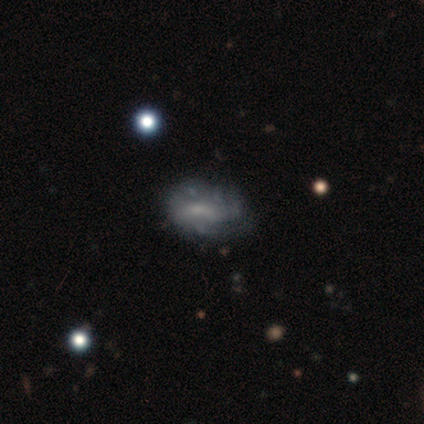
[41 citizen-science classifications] This is likely a featured or disk galaxy (66%). It is clearly not viewed edge-on (100%). Bar: possibly no (59%). Spiral arm pattern: possibly yes (59%). Spiral arm count: likely can't tell (69%). Spiral winding: possibly tight (50%). Central bulge: possibly none (48%). Merging: possibly none (54%).